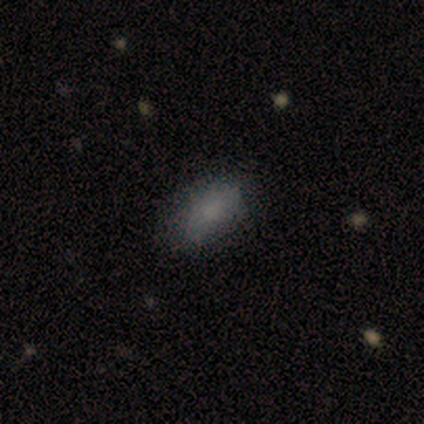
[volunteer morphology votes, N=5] Q: Smooth or featured?
A: smooth (100%)
Q: How rounded?
A: in between (100%)
Q: Merging?
A: none (100%)